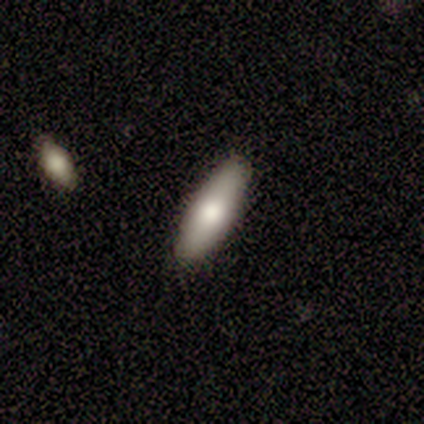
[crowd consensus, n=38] Volunteers were most divided on "how rounded": cigar-shaped: 61%, in between: 39%, round: 0%. More confident: merging — none (83%); smooth or featured — smooth (82%).